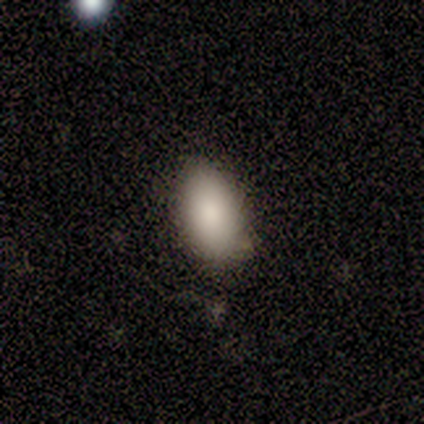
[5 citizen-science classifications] Morphology: type=smooth (100%); roundness=in between (100%); merging=none (100%).